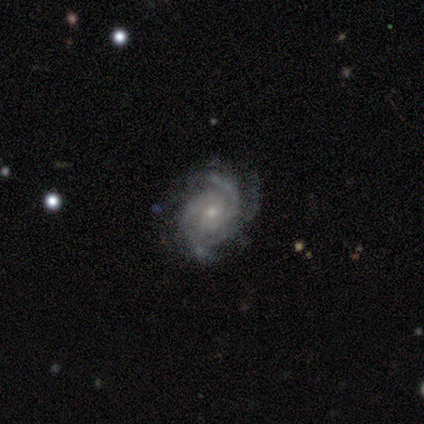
A featured or disk galaxy (92%) with no bar (86%), 3 (59%) tight (59%) spiral arms (100%) and a small central bulge (70%). Merging: none (79%).